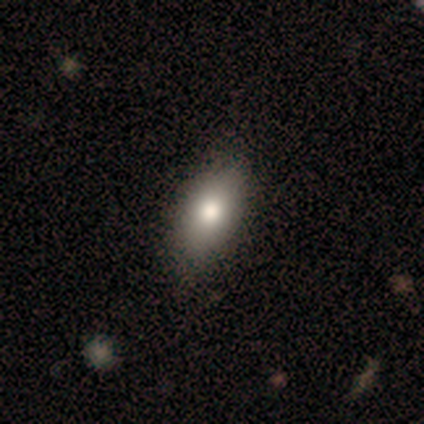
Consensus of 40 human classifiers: This is clearly a smooth galaxy (88%). How rounded: clearly in between (86%). Merging: possibly none (54%).